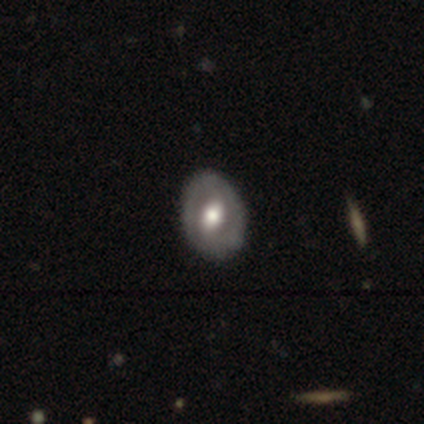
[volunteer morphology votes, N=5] Smooth or featured? featured or disk (80%)
Edge-on disk? no (100%)
Bar? strong (50%)
Spiral arms? yes (50%, tied with no)
Spiral winding? tight (50%, tied with medium)
Spiral arm count? 2 (50%, tied with 3)
Bulge size? moderate (100%)
Merging? none (80%)